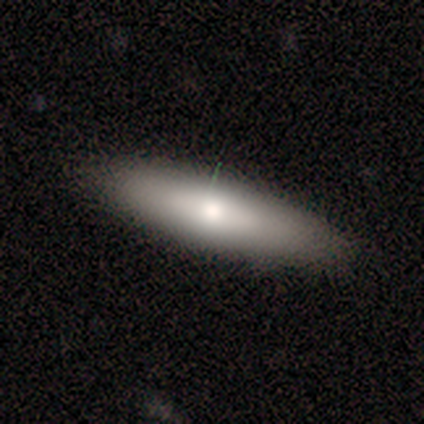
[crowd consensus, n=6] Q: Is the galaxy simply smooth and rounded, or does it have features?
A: smooth — 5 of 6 (83%).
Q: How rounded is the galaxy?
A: cigar-shaped — 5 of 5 (100%).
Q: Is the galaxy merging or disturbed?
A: none — 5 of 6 (83%).